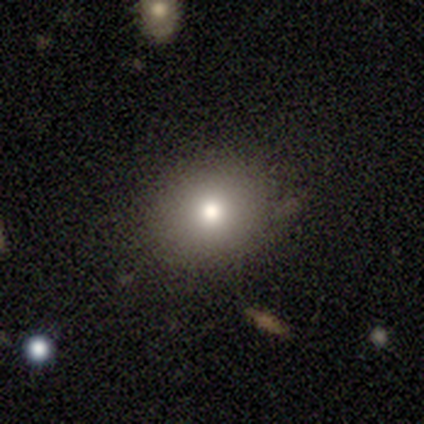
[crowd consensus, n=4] smooth-or-featured: smooth: 100% | featured or disk: 0% | star or artifact: 0%
  how-rounded: round: 50% | in between: 25% | cigar-shaped: 25%
  merging: none: 100% | minor disturbance: 0% | major disturbance: 0% | merger: 0%